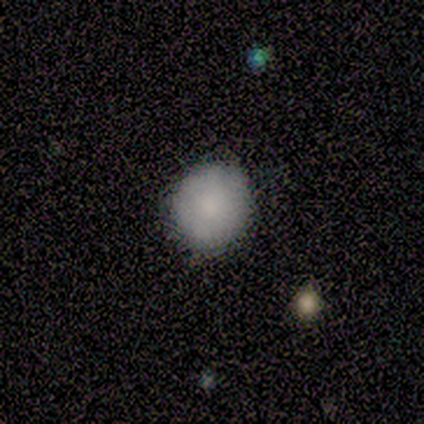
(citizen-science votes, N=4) Morphology: type=smooth (75%); roundness=round (100%); merging=none (100%).